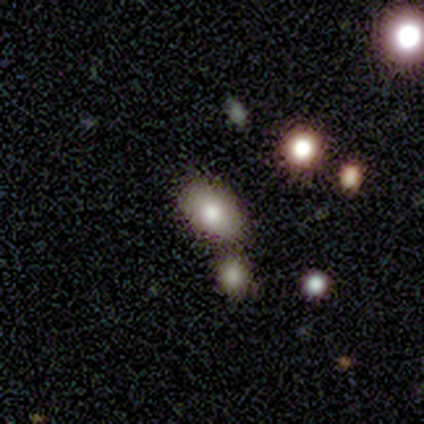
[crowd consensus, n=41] Smooth or featured: smooth — 76% (featured or disk — 22%)
How rounded: in between — 84% (round — 16%)
Merging: none — 52% (minor disturbance — 28%)